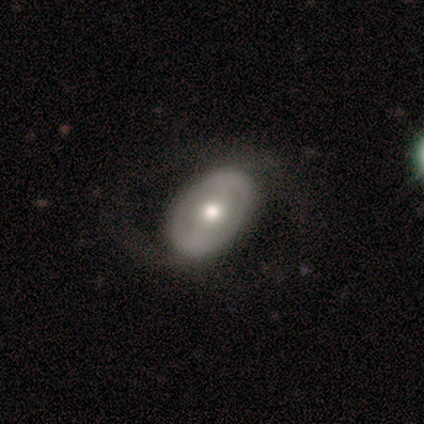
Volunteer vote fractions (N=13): Q: Smooth or featured?
A: featured or disk (92%); runner-up: smooth (8%)
Q: Edge-on disk?
A: no (100%)
Q: Bar?
A: weak (42%); runner-up: strong (33%)
Q: Spiral arms?
A: yes (75%); runner-up: no (25%)
Q: Spiral winding?
A: loose (67%); runner-up: medium (22%)
Q: Spiral arm count?
A: 2 (67%); runner-up: can't tell (33%)
Q: Bulge size?
A: moderate (50%); runner-up: large (25%)
Q: Merging?
A: none (54%); runner-up: minor disturbance (31%)